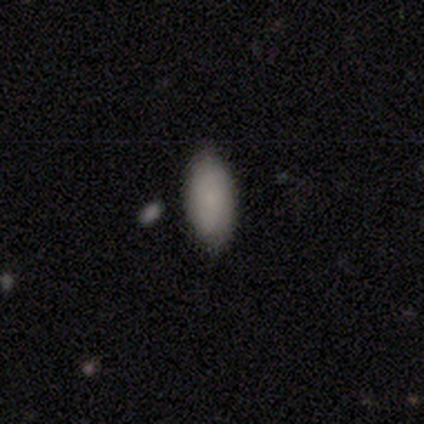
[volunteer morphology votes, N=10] smooth_or_featured: smooth (p=0.70) [alt: star or artifact p=0.20]
how_rounded: in between (p=1.00)
merging: none (p=0.75) [alt: minor disturbance p=0.12]